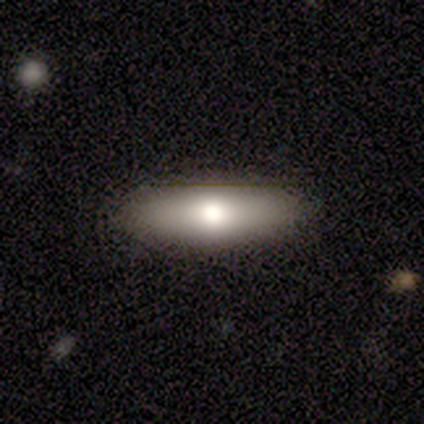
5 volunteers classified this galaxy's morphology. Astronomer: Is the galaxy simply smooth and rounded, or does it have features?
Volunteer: smooth — 40%, tied with star or artifact at 40%.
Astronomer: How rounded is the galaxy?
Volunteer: in between — 50%, tied with cigar-shaped at 50%.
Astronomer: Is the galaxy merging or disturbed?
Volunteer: none — 100%.